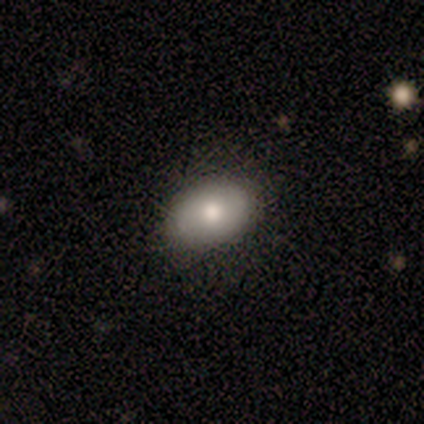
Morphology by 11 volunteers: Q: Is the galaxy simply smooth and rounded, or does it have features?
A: smooth — 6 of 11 (55%).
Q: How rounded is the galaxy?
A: in between — 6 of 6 (100%).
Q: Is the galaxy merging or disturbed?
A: none — 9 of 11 (82%).